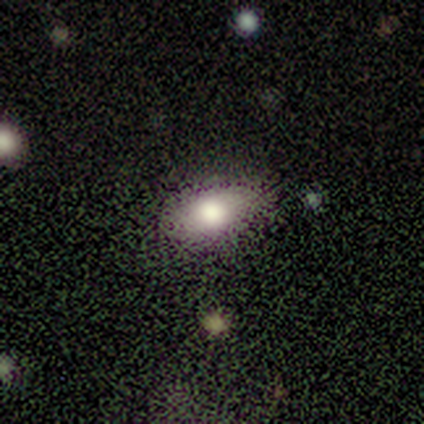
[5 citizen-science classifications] smooth_or_featured: smooth (p=0.60) [alt: featured or disk p=0.20]
how_rounded: in between (p=1.00)
merging: none (p=0.75) [alt: minor disturbance p=0.25]